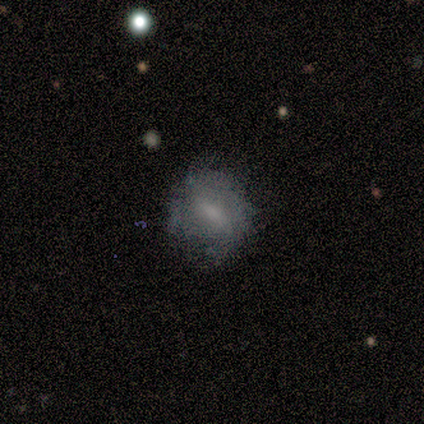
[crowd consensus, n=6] Q: Smooth or featured?
A: featured or disk (67%); runner-up: smooth (33%)
Q: Edge-on disk?
A: no (100%)
Q: Bar?
A: weak (50%); runner-up: strong (25%)
Q: Spiral arms?
A: yes (75%); runner-up: no (25%)
Q: Spiral winding?
A: tight (67%); runner-up: loose (33%)
Q: Spiral arm count?
A: 2 (67%); runner-up: 3 (33%)
Q: Bulge size?
A: small (50%); runner-up: moderate (25%)
Q: Merging?
A: none (83%); runner-up: minor disturbance (17%)